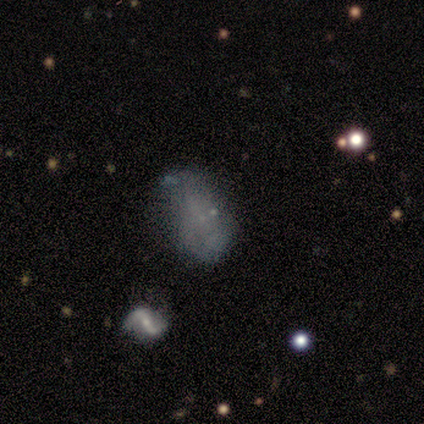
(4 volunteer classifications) smooth_or_featured: smooth (p=1.00)
how_rounded: in between (p=0.75) [alt: round p=0.25]
merging: none (p=1.00)